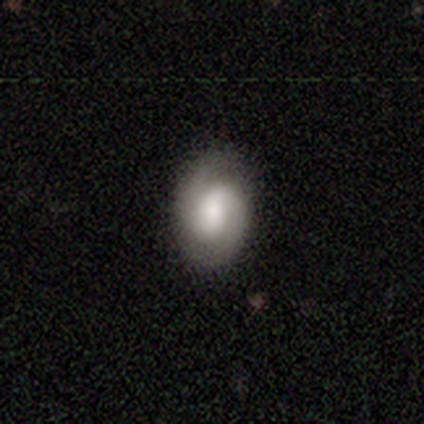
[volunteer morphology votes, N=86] Q: Smooth or featured?
A: featured or disk (69%); runner-up: smooth (29%)
Q: Edge-on disk?
A: no (100%)
Q: Bar?
A: no (53%); runner-up: weak (37%)
Q: Spiral arms?
A: yes (86%); runner-up: no (14%)
Q: Spiral winding?
A: medium (49%); runner-up: tight (41%)
Q: Spiral arm count?
A: 2 (90%); runner-up: 1 (6%)
Q: Bulge size?
A: large (42%); tied with: moderate (42%)
Q: Merging?
A: none (85%); runner-up: minor disturbance (14%)